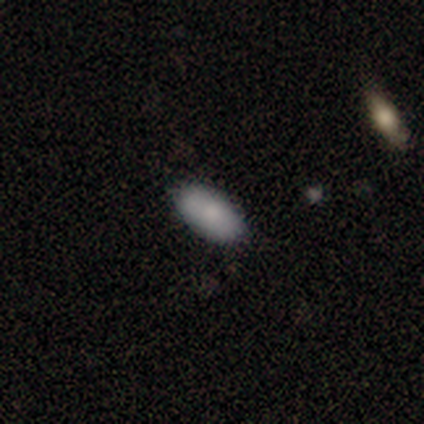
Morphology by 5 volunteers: Smooth or featured? smooth (80%)
How rounded? in between (100%)
Merging? none (100%)